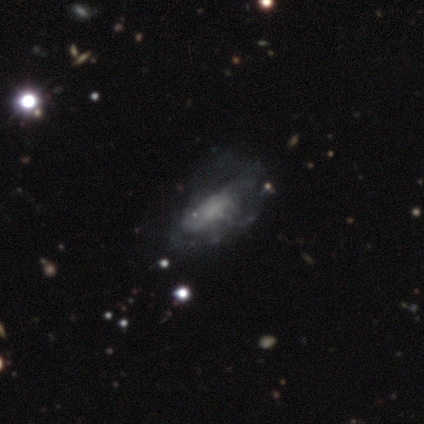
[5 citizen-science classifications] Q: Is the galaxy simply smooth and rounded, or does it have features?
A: featured or disk — 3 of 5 (60%).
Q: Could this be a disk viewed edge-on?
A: no — 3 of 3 (100%).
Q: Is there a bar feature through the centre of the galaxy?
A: no — 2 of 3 (67%).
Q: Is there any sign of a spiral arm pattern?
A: yes — 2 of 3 (67%).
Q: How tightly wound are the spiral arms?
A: tight — 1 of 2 (50%, tied with loose).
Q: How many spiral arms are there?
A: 2 — 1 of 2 (50%, tied with can't tell).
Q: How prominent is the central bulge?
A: large — 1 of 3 (33%, tied with small and none).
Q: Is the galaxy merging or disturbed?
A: none — 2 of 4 (50%).